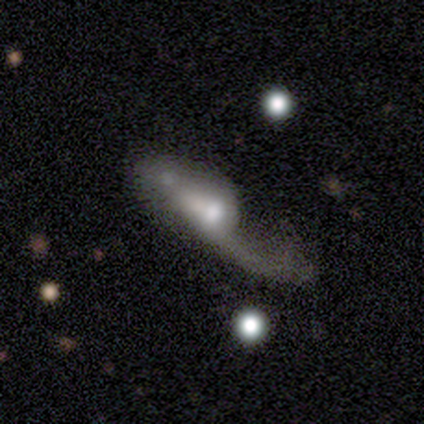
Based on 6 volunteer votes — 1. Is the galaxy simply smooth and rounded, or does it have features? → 67% featured or disk, 33% smooth, 0% star or artifact.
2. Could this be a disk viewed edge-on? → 75% no, 25% yes.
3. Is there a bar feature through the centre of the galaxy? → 67% weak, 33% no, 0% strong.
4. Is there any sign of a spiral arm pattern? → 100% yes, 0% no.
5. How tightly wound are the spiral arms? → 67% loose, 33% medium, 0% tight.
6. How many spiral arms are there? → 67% 1, 33% 2, 0% 3, 0% 4, 0% more than 4, 0% can't tell.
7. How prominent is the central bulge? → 67% small, 33% moderate, 0% dominant, 0% large, 0% none.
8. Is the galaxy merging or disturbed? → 50% minor disturbance, 33% major disturbance, 17% none, 0% merger.